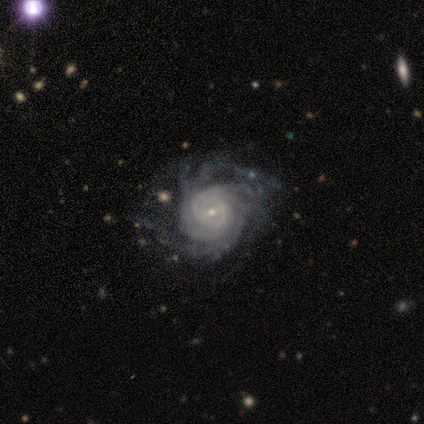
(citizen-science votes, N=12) featured or disk 100%, smooth 0%, star or artifact 0%. Down the decision tree: edge-on disk — no (100%); bar — weak (42%, tied with no); spiral arms — yes (100%); spiral arm count — more than 4 (50%); spiral winding — tight (100%); bulge size — small (83%); merging — none (92%).